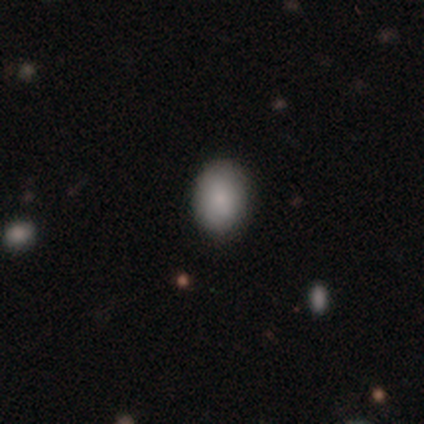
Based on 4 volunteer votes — Smooth or featured? 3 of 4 (75%) said smooth. How rounded? 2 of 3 (67%) said in between. Merging? 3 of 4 (75%) said none.